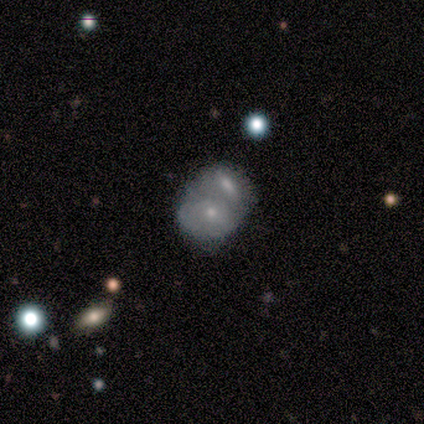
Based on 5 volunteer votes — Morphology: type=smooth (60%); roundness=in between (100%); merging=merger (100%).